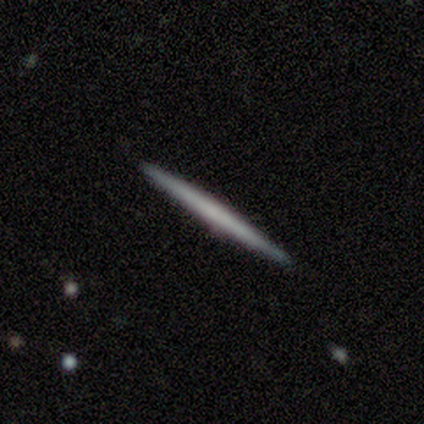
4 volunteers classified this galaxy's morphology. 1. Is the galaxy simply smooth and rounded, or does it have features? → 100% smooth, 0% featured or disk, 0% star or artifact.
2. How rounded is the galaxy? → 100% cigar-shaped, 0% round, 0% in between.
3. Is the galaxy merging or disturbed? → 100% none, 0% minor disturbance, 0% major disturbance, 0% merger.